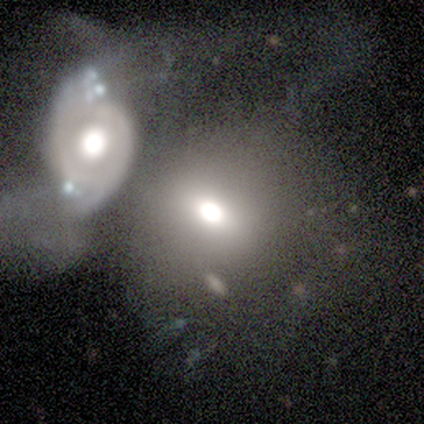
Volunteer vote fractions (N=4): featured or disk 50%, smooth 25%, star or artifact 25%. Down the decision tree: edge-on disk — no (100%); bar — no (100%); spiral arms — no (100%); bulge size — moderate (100%); merging — merger (100%).